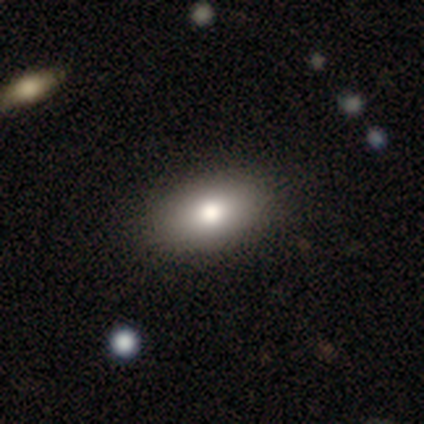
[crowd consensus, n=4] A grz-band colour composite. It shows a smooth galaxy with no disk features (75%) that is in between round and cigar-shaped (67%). Merging: none (75%).